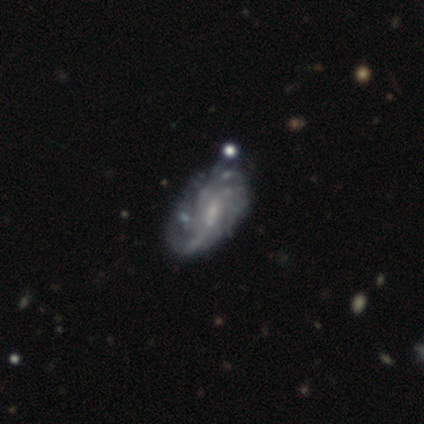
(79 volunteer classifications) Q: Smooth or featured?
A: featured or disk (94%); runner-up: smooth (4%)
Q: Edge-on disk?
A: no (96%); runner-up: yes (4%)
Q: Bar?
A: weak (54%); runner-up: no (35%)
Q: Spiral arms?
A: yes (86%); runner-up: no (14%)
Q: Spiral winding?
A: tight (56%); runner-up: medium (25%)
Q: Spiral arm count?
A: can't tell (54%); runner-up: 3 (16%)
Q: Bulge size?
A: small (55%); runner-up: none (25%)
Q: Merging?
A: none (26%); runner-up: minor disturbance (12%)